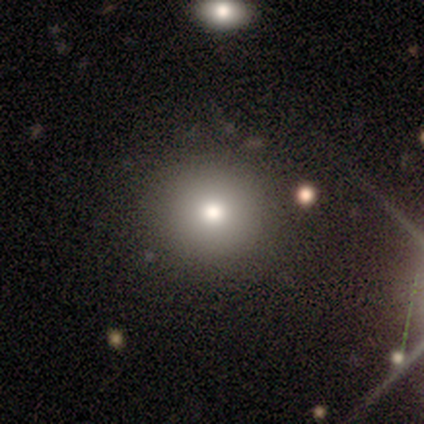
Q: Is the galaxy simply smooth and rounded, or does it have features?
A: smooth — 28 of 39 (72%).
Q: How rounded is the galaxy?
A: round — 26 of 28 (93%).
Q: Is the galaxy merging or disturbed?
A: none — 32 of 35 (91%).